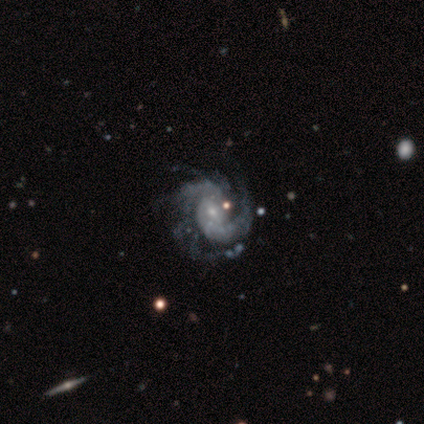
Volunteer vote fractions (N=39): Q: Smooth or featured?
A: featured or disk (100%)
Q: Edge-on disk?
A: no (100%)
Q: Bar?
A: weak (56%); runner-up: no (38%)
Q: Spiral arms?
A: yes (100%)
Q: Spiral winding?
A: medium (46%); runner-up: tight (33%)
Q: Spiral arm count?
A: 2 (44%); runner-up: 3 (26%)
Q: Bulge size?
A: small (74%); runner-up: moderate (15%)
Q: Merging?
A: none (33%); runner-up: minor disturbance (21%)